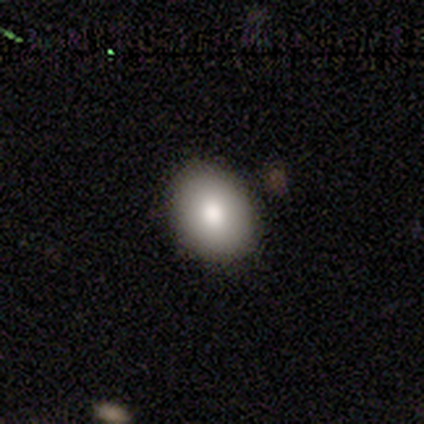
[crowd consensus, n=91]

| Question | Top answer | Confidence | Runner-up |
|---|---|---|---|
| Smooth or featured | smooth | 87% | featured or disk (9%) |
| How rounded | in between | 56% | round (43%) |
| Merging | none | 89% | minor disturbance (8%) |